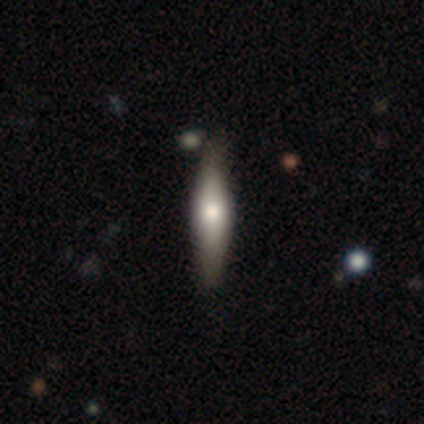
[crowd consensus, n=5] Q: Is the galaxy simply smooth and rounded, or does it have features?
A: smooth — 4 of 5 (80%).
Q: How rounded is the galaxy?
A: in between — 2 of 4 (50%, tied with cigar-shaped).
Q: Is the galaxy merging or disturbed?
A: none — 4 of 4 (100%).